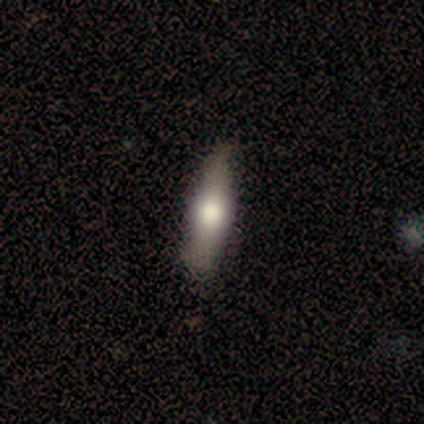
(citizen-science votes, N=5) This is likely a featured or disk galaxy (60%). It is likely viewed edge-on (67%). Edge-on bulge: clearly rounded (100%). Merging: clearly none (100%).